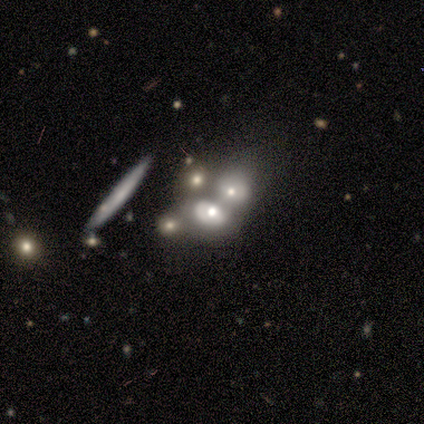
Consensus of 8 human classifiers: Smooth or featured: featured or disk — 50% (smooth — 25%)
Edge-on disk: no — 75% (yes — 25%)
Bar: no — 100%
Spiral arms: no — 100%
Bulge size: moderate — 67% (large — 33%)
Merging: merger — 67% (none — 33%)